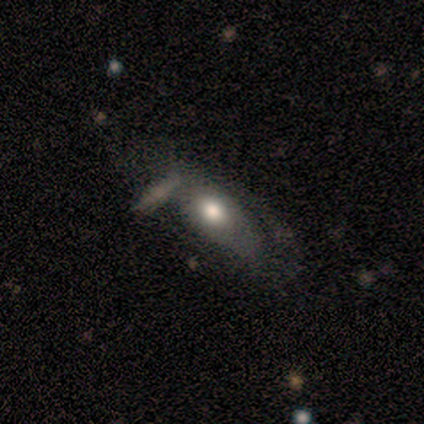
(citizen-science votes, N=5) This appears to be a featured or disk galaxy (60%) with no bar (100%), no spiral arms (100%) and a large central bulge (50%, tied with moderate). Merging: none (80%).